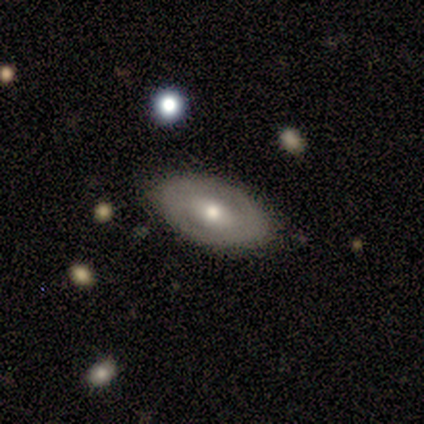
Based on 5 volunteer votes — Smooth or featured: smooth — 60% (featured or disk — 20%)
How rounded: in between — 67% (round — 33%)
Merging: none — 100%